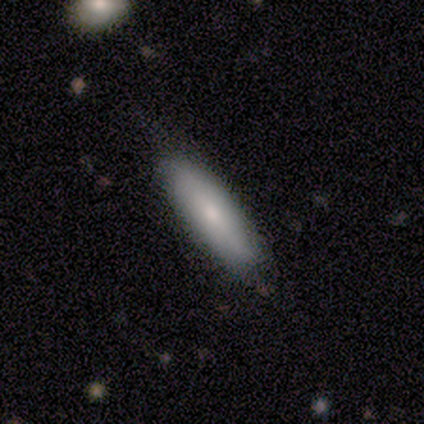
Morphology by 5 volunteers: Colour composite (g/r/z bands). It shows a featured or disk galaxy (80%) viewed edge-on (50%, tied with no) with a boxy central bulge (50%, tied with rounded). Merging: none (60%).